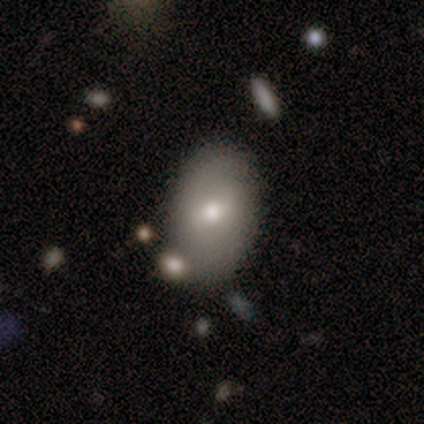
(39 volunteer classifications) This appears to be a smooth galaxy with no disk features (69%) that is in between round and cigar-shaped (93%). Merging: none (79%).